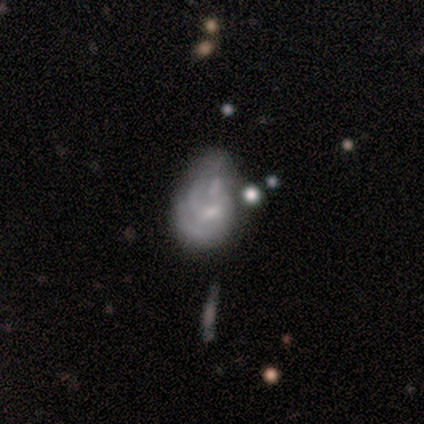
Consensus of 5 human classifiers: smooth_or_featured: featured or disk (p=0.80) [alt: smooth p=0.20]
disk_edge_on: no (p=1.00)
bar: no (p=0.75) [alt: weak p=0.25]
has_spiral_arms: yes (p=0.50) [tied with: no p=0.50]
spiral_winding: tight (p=0.50) [tied with: medium p=0.50]
spiral_arm_count: 2 (p=0.50) [tied with: can't tell p=0.50]
bulge_size: small (p=0.50) [alt: moderate p=0.25]
merging: major disturbance (p=0.60) [alt: none p=0.20]